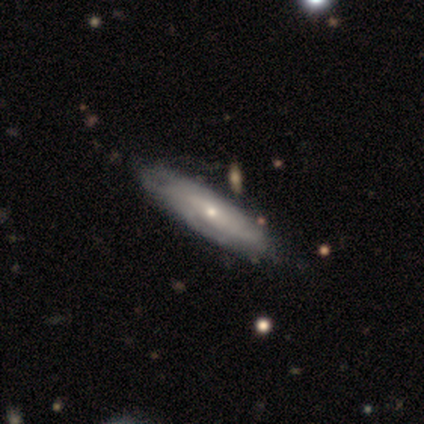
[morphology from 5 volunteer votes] Smooth or featured? featured or disk (60%)
Edge-on disk? yes (67%)
Edge-on bulge? none (50%, tied with rounded)
Merging? none (80%)